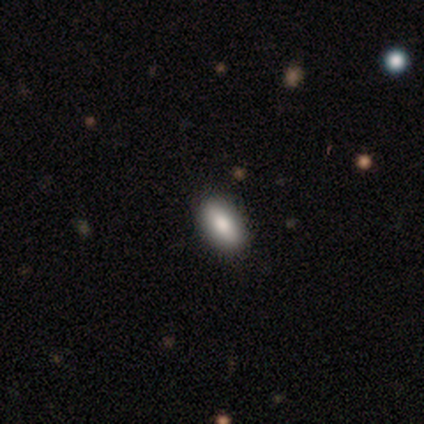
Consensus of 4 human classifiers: Q: Smooth or featured?
A: smooth (75%); runner-up: featured or disk (25%)
Q: How rounded?
A: in between (100%)
Q: Merging?
A: none (50%); runner-up: minor disturbance (25%)